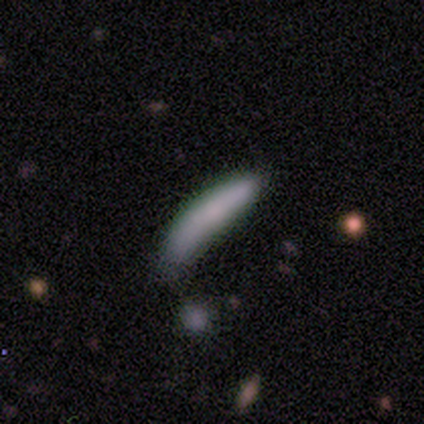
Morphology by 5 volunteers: Smooth or featured? smooth (100%)
How rounded? cigar-shaped (80%)
Merging? none (60%)